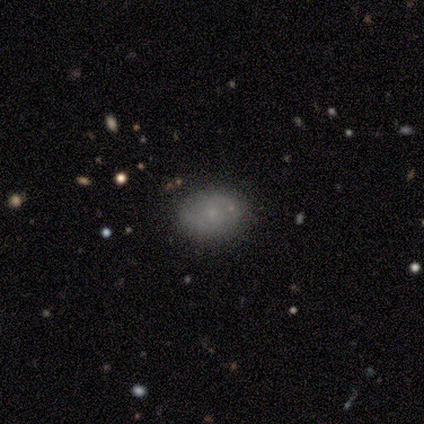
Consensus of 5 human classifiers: Q: Smooth or featured?
A: smooth (40%); tied with: featured or disk (40%)
Q: How rounded?
A: round (50%); tied with: in between (50%)
Q: Merging?
A: none (100%)